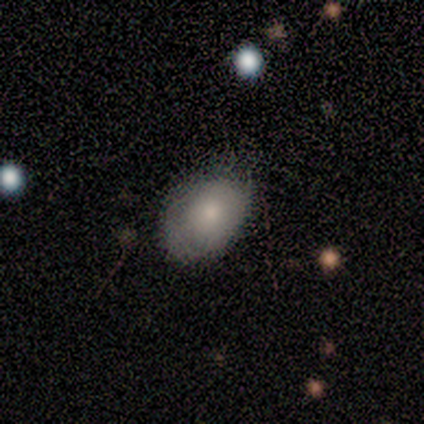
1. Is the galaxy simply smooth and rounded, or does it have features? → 83% smooth, 17% featured or disk, 0% star or artifact.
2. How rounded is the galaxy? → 100% in between, 0% round, 0% cigar-shaped.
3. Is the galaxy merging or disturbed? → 67% none, 33% minor disturbance, 0% major disturbance, 0% merger.